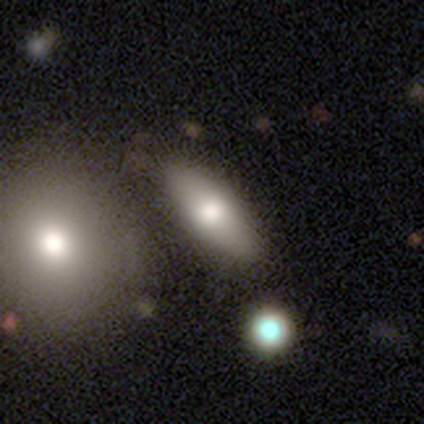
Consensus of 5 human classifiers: Q: Smooth or featured?
A: smooth (60%); runner-up: featured or disk (20%)
Q: How rounded?
A: in between (100%)
Q: Merging?
A: none (100%)